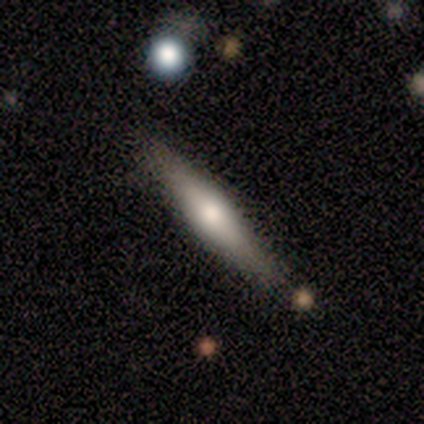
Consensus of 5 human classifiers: Smooth or featured? 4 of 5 (80%) said featured or disk. Edge-on disk? 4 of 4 (100%) said yes. Edge-on bulge? 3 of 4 (75%) said rounded. Merging? 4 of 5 (80%) said none.